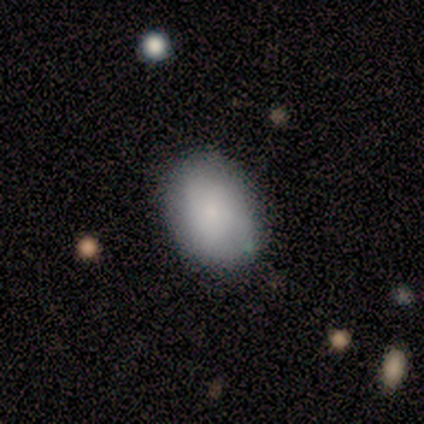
A smooth galaxy with no disk features (75%) that is in between round and cigar-shaped (67%).

Vote fractions:
- Smooth or featured? smooth: 75% / featured or disk: 25% / star or artifact: 0%
- How rounded? in between: 67% / round: 33% / cigar-shaped: 0%
- Merging? none: 100% / minor disturbance: 0% / major disturbance: 0% / merger: 0%